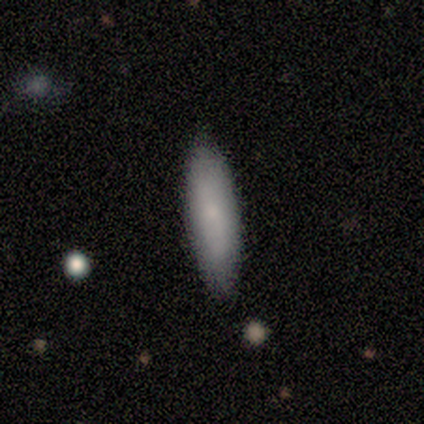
This is clearly a smooth galaxy (80%). How rounded: likely cigar-shaped (75%). Merging: clearly none (80%).